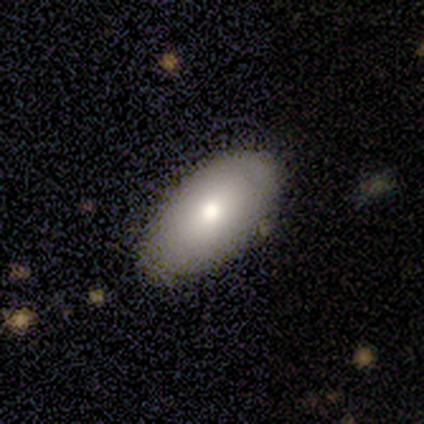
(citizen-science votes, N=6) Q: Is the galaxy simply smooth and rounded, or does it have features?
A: smooth — 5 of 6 (83%).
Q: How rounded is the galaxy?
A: in between — 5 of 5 (100%).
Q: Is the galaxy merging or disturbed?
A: none — 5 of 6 (83%).